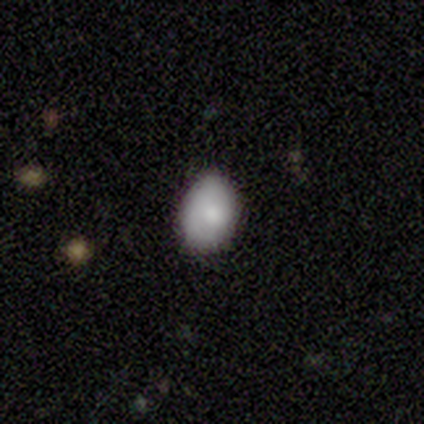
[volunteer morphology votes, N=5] smooth 100%, featured or disk 0%, star or artifact 0%. Down the decision tree: how rounded — in between (80%); merging — none (100%).